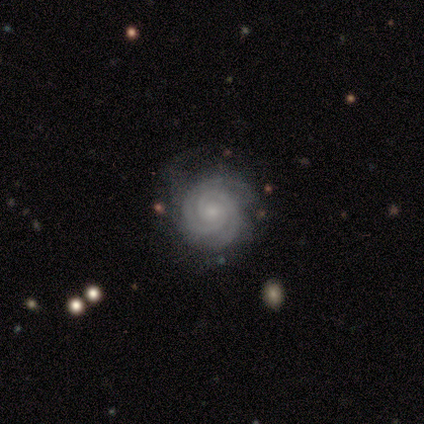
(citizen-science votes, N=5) Volunteers were most divided on "bar": weak: 60%, no: 40%, strong: 0%. More confident: smooth or featured — featured or disk (100%); edge-on disk — no (100%); spiral arms — yes (100%); bulge size — small (100%); merging — none (100%); spiral winding — tight (80%); spiral arm count — 3 (60%).